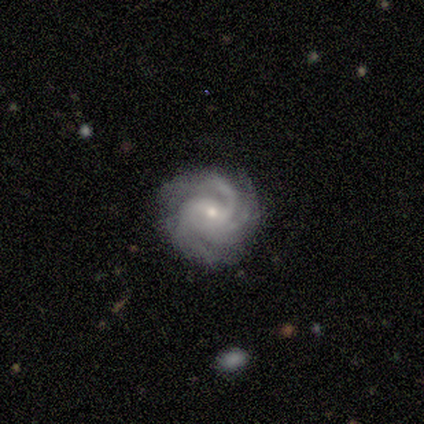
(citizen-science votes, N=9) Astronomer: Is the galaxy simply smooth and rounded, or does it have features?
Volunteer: featured or disk — 100%.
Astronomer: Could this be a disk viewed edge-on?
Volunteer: no — 100%.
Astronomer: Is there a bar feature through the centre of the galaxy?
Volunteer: weak — 56%.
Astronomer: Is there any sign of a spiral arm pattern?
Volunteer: yes — 100%.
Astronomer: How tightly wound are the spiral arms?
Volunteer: tight — 56% (runner-up: medium, 44%).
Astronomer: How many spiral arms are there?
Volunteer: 3 — 44%, tied with can't tell at 44%.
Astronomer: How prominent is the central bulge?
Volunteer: small — 56% (runner-up: moderate, 33%).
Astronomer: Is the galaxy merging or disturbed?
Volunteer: none — 89%.